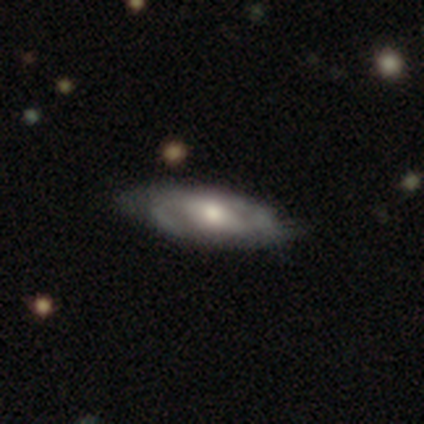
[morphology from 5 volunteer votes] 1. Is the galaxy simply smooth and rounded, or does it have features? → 100% featured or disk, 0% smooth, 0% star or artifact.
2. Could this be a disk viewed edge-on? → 80% no, 20% yes.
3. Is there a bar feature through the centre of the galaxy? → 75% weak, 25% strong, 0% no.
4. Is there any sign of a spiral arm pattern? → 100% yes, 0% no.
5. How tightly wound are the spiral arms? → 75% tight, 25% loose, 0% medium.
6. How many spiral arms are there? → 75% 2, 25% can't tell, 0% 1, 0% 3, 0% 4, 0% more than 4.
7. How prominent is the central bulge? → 50% moderate, 25% large, 25% small, 0% dominant, 0% none.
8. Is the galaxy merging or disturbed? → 100% minor disturbance, 0% none, 0% major disturbance, 0% merger.